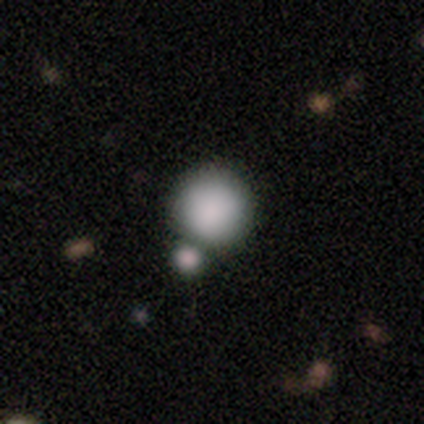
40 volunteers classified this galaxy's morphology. Smooth or featured: smooth — 85% (featured or disk — 10%)
How rounded: round — 97% (in between — 3%)
Merging: merger — 39% (none — 34%)